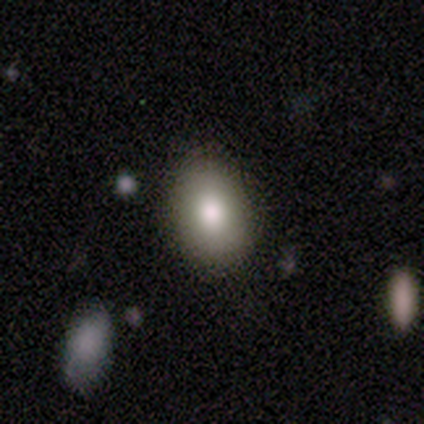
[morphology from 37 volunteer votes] Smooth or featured? smooth (78%)
How rounded? in between (72%)
Merging? none (82%)